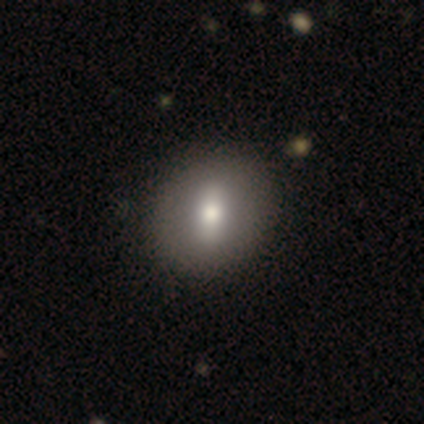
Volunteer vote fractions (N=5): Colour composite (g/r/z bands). It shows a smooth galaxy with no disk features (40%, tied with featured or disk) that is in between round and cigar-shaped (100%). Merging: none (75%).